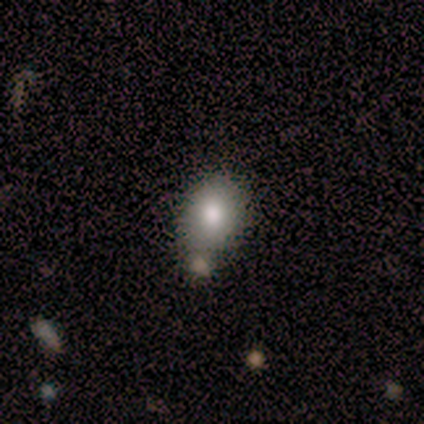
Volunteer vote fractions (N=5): Smooth or featured?
  - smooth: 80% *
  - featured or disk: 20%
  - star or artifact: 0%
How rounded?
  - in between: 100% *
  - round: 0%
  - cigar-shaped: 0%
Merging?
  - none: 60% *
  - minor disturbance: 20%
  - merger: 20%
  - major disturbance: 0%